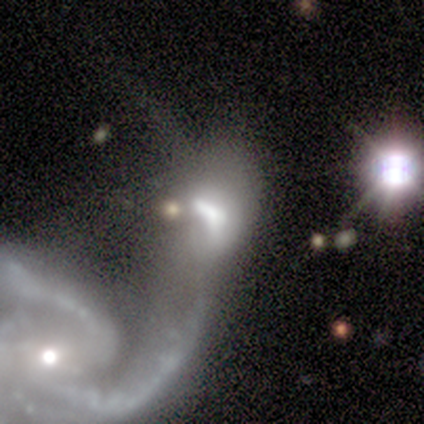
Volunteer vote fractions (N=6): Smooth or featured?
  - featured or disk: 67% *
  - smooth: 33%
  - star or artifact: 0%
Edge-on disk?
  - no: 100% *
  - yes: 0%
Bar?
  - no: 50% *
  - strong: 25%
  - weak: 25%
Spiral arms?
  - yes: 50% * (tied)
  - no: 50% * (tied)
Spiral winding?
  - tight: 50% * (tied)
  - medium: 50% * (tied)
  - loose: 0%
Spiral arm count?
  - 2: 50% * (tied)
  - 3: 50% * (tied)
  - 1: 0%
  - 4: 0%
  - more than 4: 0%
  - can't tell: 0%
Bulge size?
  - dominant: 50% *
  - large: 25%
  - none: 25%
  - moderate: 0%
  - small: 0%
Merging?
  - merger: 83% *
  - major disturbance: 17%
  - none: 0%
  - minor disturbance: 0%